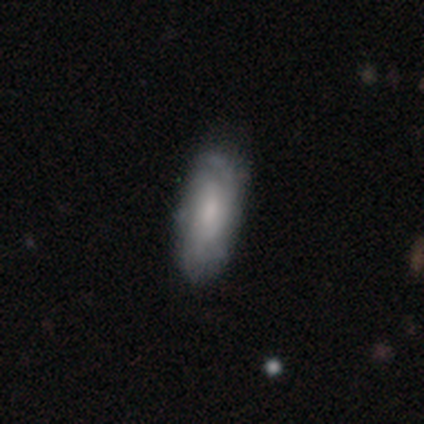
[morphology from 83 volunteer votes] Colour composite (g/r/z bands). It shows a smooth galaxy with no disk features (48%) that is in between round and cigar-shaped (82%). Merging: none (73%).